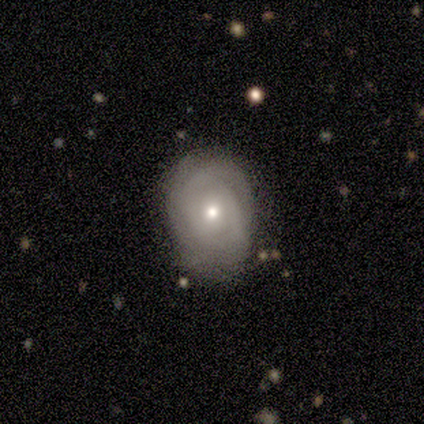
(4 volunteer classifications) Smooth or featured? 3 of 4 (75%) said featured or disk. Edge-on disk? 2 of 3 (67%) said no. Bar? 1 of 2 (50%, tied with no) said weak. Spiral arms? 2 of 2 (100%) said yes. Spiral winding? 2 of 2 (100%) said tight. Spiral arm count? 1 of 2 (50%, tied with can't tell) said 3. Bulge size? 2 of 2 (100%) said moderate. Merging? 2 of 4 (50%, tied with minor disturbance) said none.